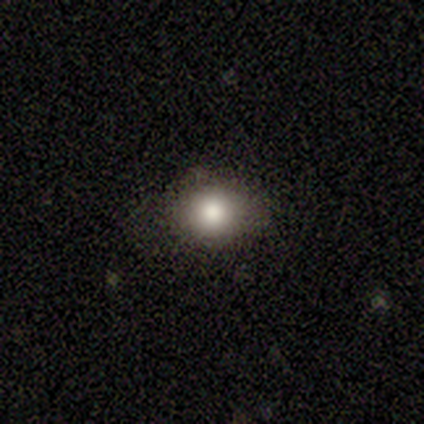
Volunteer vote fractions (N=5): Volunteers were most divided on "how rounded": round: 75%, in between: 25%, cigar-shaped: 0%. More confident: smooth or featured — smooth (80%); merging — none (75%).